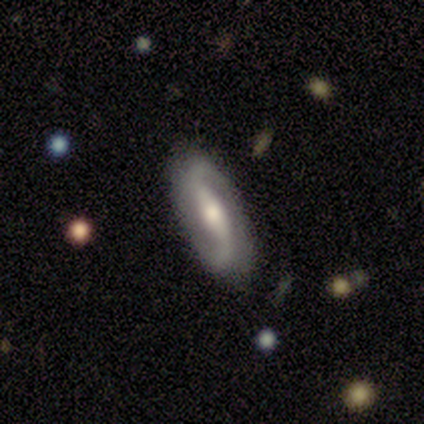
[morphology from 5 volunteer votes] Smooth or featured?
  - featured or disk: 100% *
  - smooth: 0%
  - star or artifact: 0%
Edge-on disk?
  - no: 100% *
  - yes: 0%
Bar?
  - strong: 40% * (tied)
  - weak: 40% * (tied)
  - no: 20%
Spiral arms?
  - yes: 100% *
  - no: 0%
Spiral winding?
  - loose: 80% *
  - medium: 20%
  - tight: 0%
Spiral arm count?
  - 2: 100% *
  - 1: 0%
  - 3: 0%
  - 4: 0%
  - more than 4: 0%
  - can't tell: 0%
Bulge size?
  - moderate: 40% * (tied)
  - small: 40% * (tied)
  - large: 20%
  - dominant: 0%
  - none: 0%
Merging?
  - none: 80% *
  - major disturbance: 20%
  - minor disturbance: 0%
  - merger: 0%